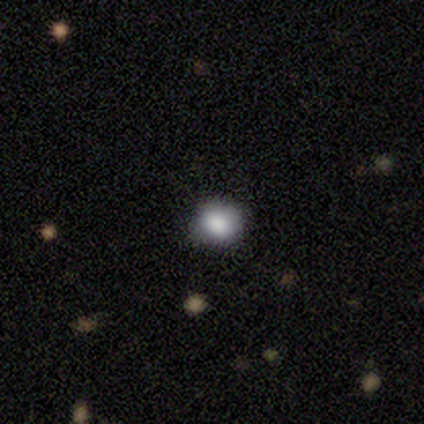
Smooth or featured?
  - smooth: 40% * (tied)
  - featured or disk: 40% * (tied)
  - star or artifact: 20%
How rounded?
  - round: 100% *
  - in between: 0%
  - cigar-shaped: 0%
Merging?
  - none: 75% *
  - minor disturbance: 25%
  - major disturbance: 0%
  - merger: 0%